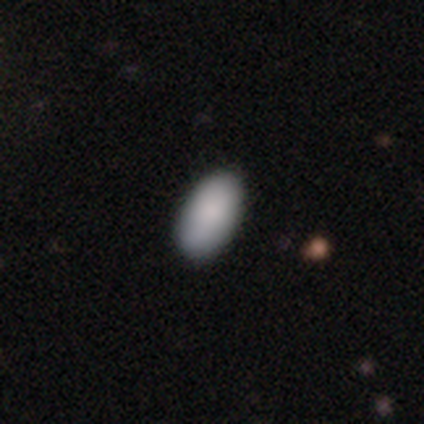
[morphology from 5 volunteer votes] Overall: smooth (100%). How rounded: in between (100%). Merging: none (100%).